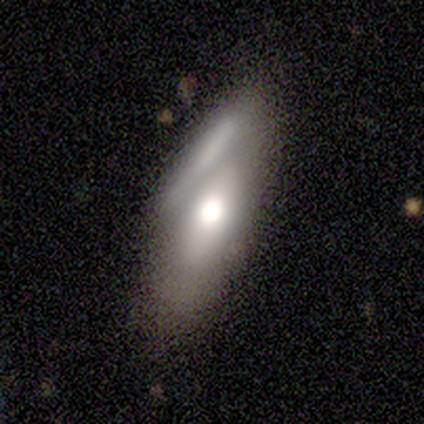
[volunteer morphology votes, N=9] Volunteers were most divided on "merging": merger: 38%, none: 25%, minor disturbance: 25%, major disturbance: 12%. More confident: how rounded — in between (100%); smooth or featured — smooth (67%).